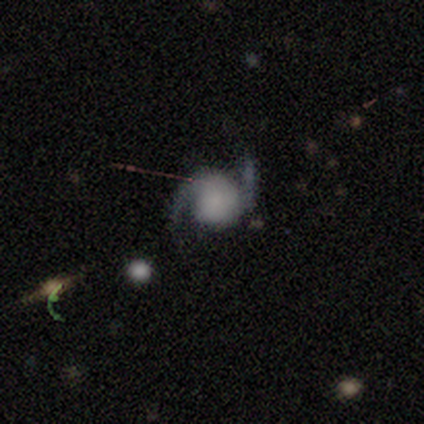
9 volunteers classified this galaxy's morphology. Q: Smooth or featured?
A: featured or disk (89%); runner-up: star or artifact (11%)
Q: Edge-on disk?
A: no (100%)
Q: Bar?
A: no (75%); runner-up: weak (25%)
Q: Spiral arms?
A: yes (100%)
Q: Spiral winding?
A: medium (50%); runner-up: loose (38%)
Q: Spiral arm count?
A: 2 (100%)
Q: Bulge size?
A: none (62%); runner-up: large (12%)
Q: Merging?
A: none (75%); runner-up: major disturbance (25%)